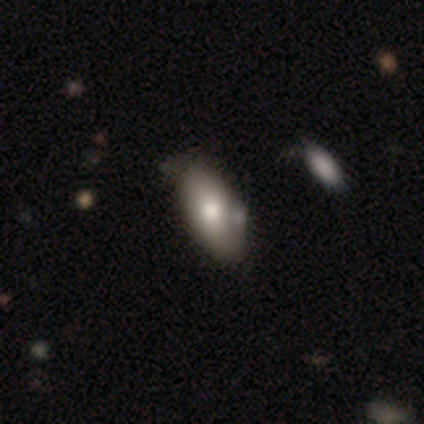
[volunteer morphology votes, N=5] A smooth galaxy with no disk features (100%) that is in between round and cigar-shaped (100%).

Vote fractions:
- Smooth or featured? smooth: 100% / featured or disk: 0% / star or artifact: 0%
- How rounded? in between: 100% / round: 0% / cigar-shaped: 0%
- Merging? none: 80% / minor disturbance: 20% / major disturbance: 0% / merger: 0%